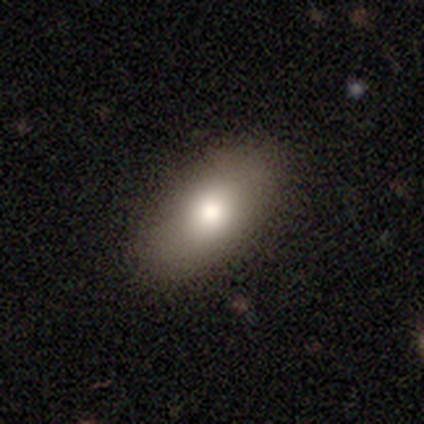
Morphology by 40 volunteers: Volunteers were most divided on "smooth or featured": smooth: 78%, star or artifact: 15%, featured or disk: 8%. More confident: how rounded — in between (97%); merging — none (71%).